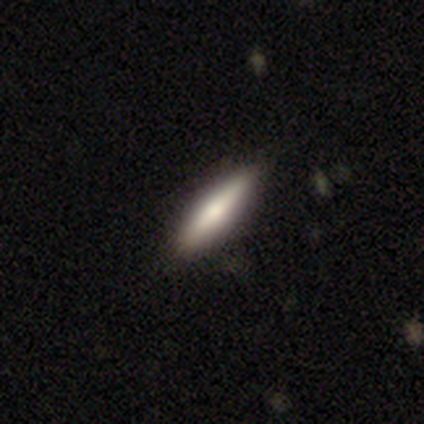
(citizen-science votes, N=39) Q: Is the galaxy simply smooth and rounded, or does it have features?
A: smooth — 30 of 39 (77%).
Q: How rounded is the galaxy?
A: cigar-shaped — 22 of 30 (73%).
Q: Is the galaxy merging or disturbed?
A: none — 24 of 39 (62%).